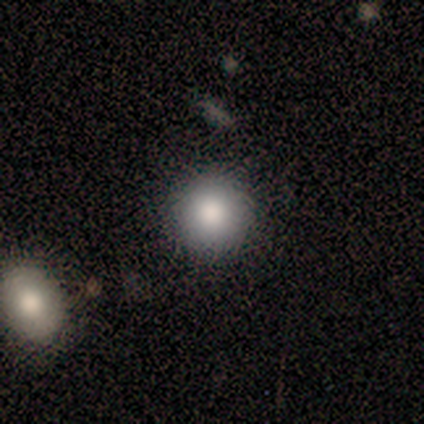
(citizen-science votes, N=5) smooth 80%, star or artifact 20%, featured or disk 0%. Down the decision tree: how rounded — round (100%); merging — none (100%).